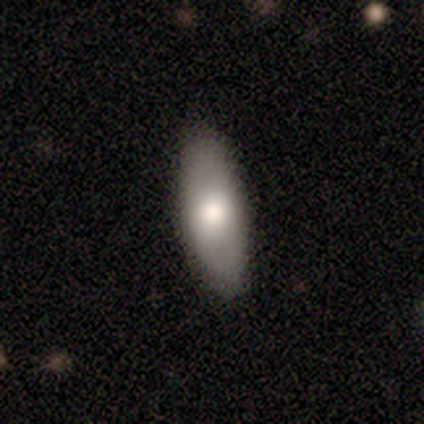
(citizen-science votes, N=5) smooth_or_featured: smooth (p=1.00)
how_rounded: in between (p=0.60) [alt: cigar-shaped p=0.40]
merging: none (p=0.80) [alt: minor disturbance p=0.20]